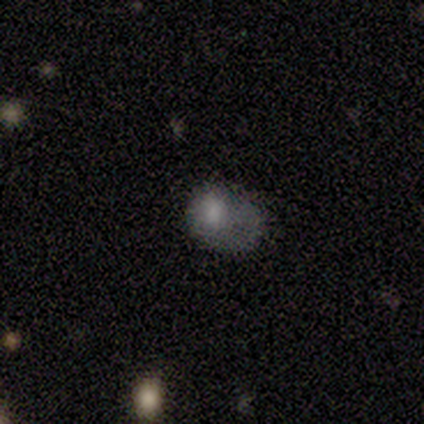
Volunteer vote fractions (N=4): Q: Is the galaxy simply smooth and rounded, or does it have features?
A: featured or disk — 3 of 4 (75%).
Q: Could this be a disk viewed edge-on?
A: no — 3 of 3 (100%).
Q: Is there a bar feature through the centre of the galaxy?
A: no — 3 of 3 (100%).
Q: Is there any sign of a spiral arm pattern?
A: no — 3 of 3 (100%).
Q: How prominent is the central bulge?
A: large — 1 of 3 (33%, tied with moderate and none).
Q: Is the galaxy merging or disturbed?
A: major disturbance — 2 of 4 (50%).